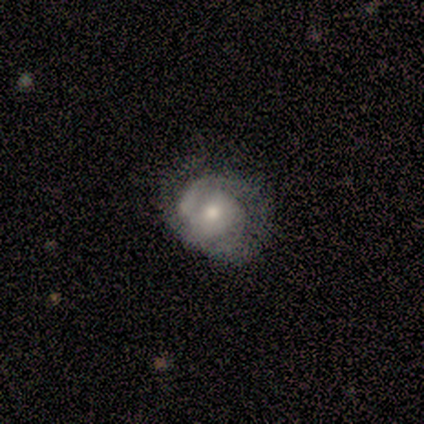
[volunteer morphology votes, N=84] Smooth or featured? 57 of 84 (68%) said featured or disk. Edge-on disk? 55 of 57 (96%) said no. Bar? 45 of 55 (82%) said no. Spiral arms? 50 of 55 (91%) said yes. Spiral winding? 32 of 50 (64%) said tight. Spiral arm count? 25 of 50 (50%) said 2. Bulge size? 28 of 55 (51%) said moderate. Merging? 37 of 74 (50%) said none.